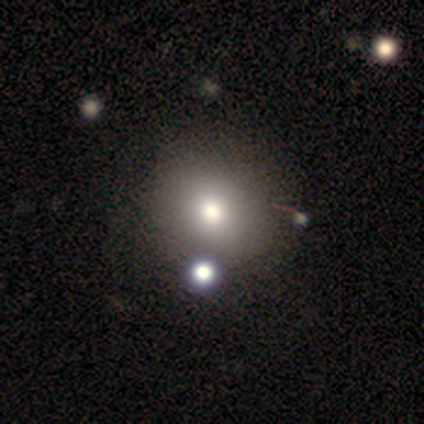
Smooth or featured?
  - smooth: 88% *
  - star or artifact: 12%
  - featured or disk: 0%
How rounded?
  - round: 86% *
  - in between: 14%
  - cigar-shaped: 0%
Merging?
  - none: 71% *
  - minor disturbance: 14%
  - merger: 14%
  - major disturbance: 0%